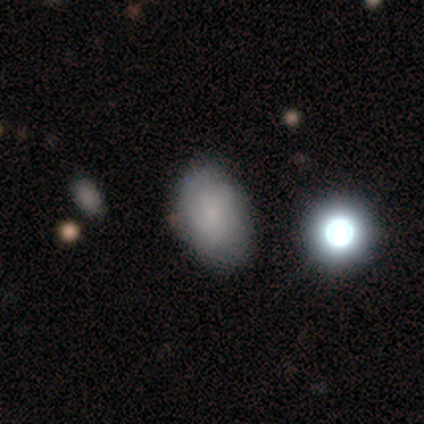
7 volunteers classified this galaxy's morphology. type=smooth (100%); roundness=in between (71%); merging=none (86%).